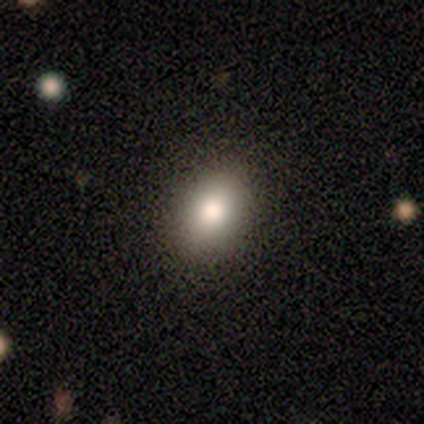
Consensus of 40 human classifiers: Morphology: type=smooth (68%); roundness=in between (74%); merging=none (86%).